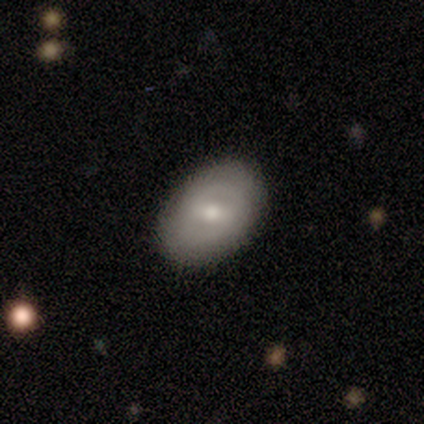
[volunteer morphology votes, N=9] A smooth galaxy with no disk features (67%) that is in between round and cigar-shaped (100%). Merging: none (100%).